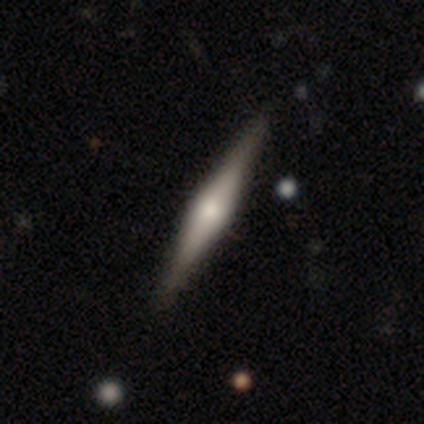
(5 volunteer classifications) Smooth or featured?
  - featured or disk: 80% *
  - smooth: 20%
  - star or artifact: 0%
Edge-on disk?
  - yes: 100% *
  - no: 0%
Edge-on bulge?
  - rounded: 100% *
  - boxy: 0%
  - none: 0%
Merging?
  - none: 80% *
  - minor disturbance: 20%
  - major disturbance: 0%
  - merger: 0%